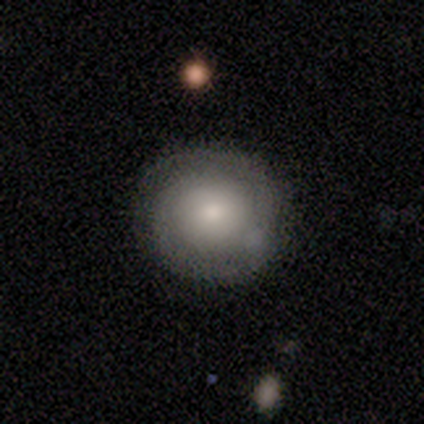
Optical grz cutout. It shows a smooth galaxy with no disk features (52%) that is round (95%). Merging: none (78%).